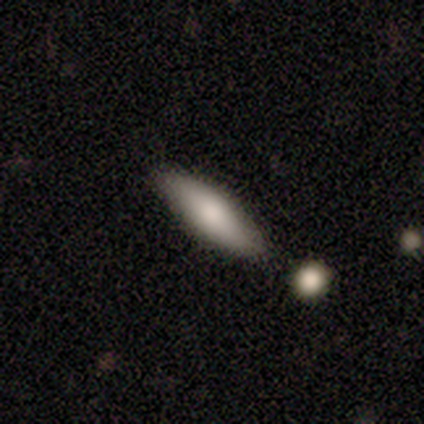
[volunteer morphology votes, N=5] Q: Smooth or featured?
A: featured or disk (60%); runner-up: smooth (40%)
Q: Edge-on disk?
A: yes (67%); runner-up: no (33%)
Q: Edge-on bulge?
A: none (50%); tied with: rounded (50%)
Q: Merging?
A: none (80%); runner-up: minor disturbance (20%)